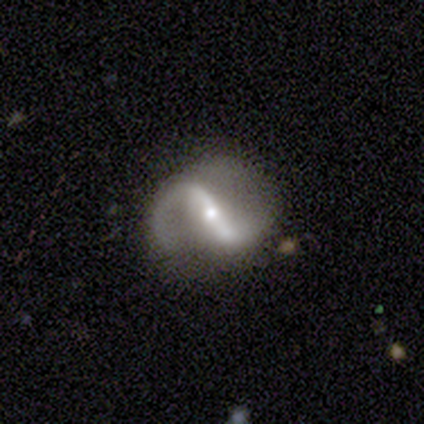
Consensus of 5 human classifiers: Volunteers were most divided on "spiral winding" (2-way tie): medium: 50%, loose: 50%, tight: 0%. More confident: smooth or featured — featured or disk (100%); spiral arms — yes (100%); spiral arm count — 2 (100%); bulge size — moderate (100%); edge-on disk — no (80%); bar — strong (75%); merging — none (60%).